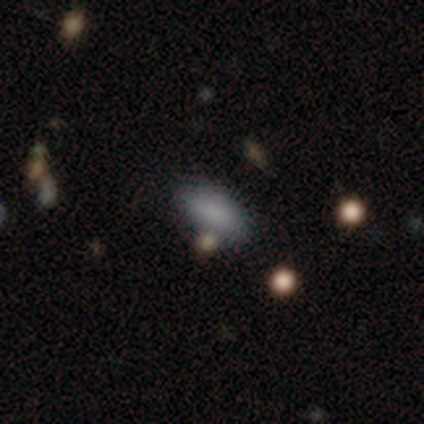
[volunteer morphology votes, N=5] smooth_or_featured: smooth (p=0.80) [alt: featured or disk p=0.20]
how_rounded: in between (p=1.00)
merging: none (p=0.60) [alt: minor disturbance p=0.40]